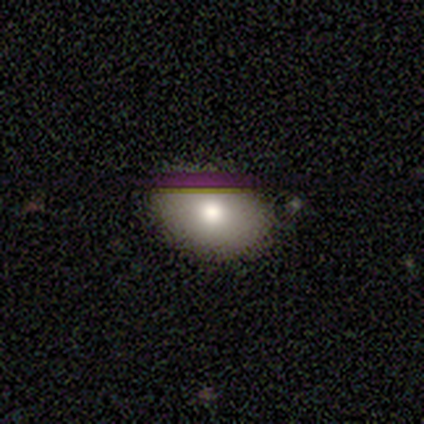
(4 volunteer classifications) smooth 75%, star or artifact 25%, featured or disk 0%. Down the decision tree: how rounded — in between (67%); merging — none (100%).